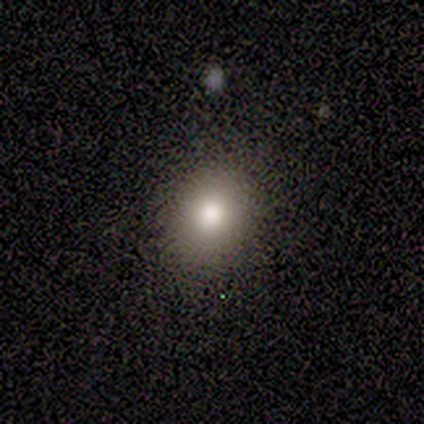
A smooth galaxy with no disk features (80%) that is round (50%, tied with in between).

Vote fractions:
- Smooth or featured? smooth: 80% / featured or disk: 20% / star or artifact: 0%
- How rounded? round: 50% (tied) / in between: 50% (tied) / cigar-shaped: 0%
- Merging? none: 100% / minor disturbance: 0% / major disturbance: 0% / merger: 0%